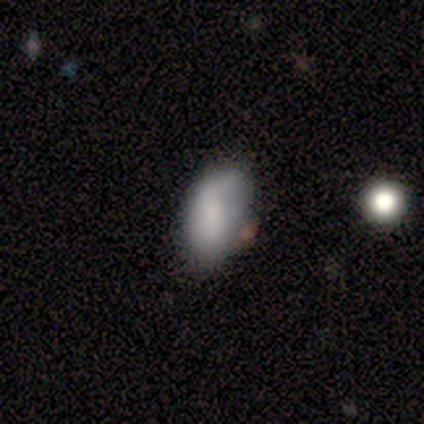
Q: Smooth or featured?
A: smooth (80%); runner-up: featured or disk (20%)
Q: How rounded?
A: in between (100%)
Q: Merging?
A: minor disturbance (80%); runner-up: none (20%)